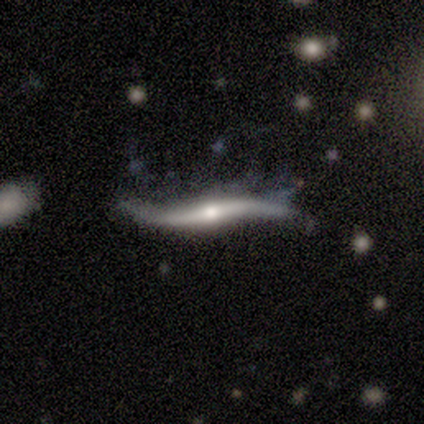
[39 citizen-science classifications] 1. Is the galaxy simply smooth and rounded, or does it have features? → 77% featured or disk, 15% smooth, 8% star or artifact.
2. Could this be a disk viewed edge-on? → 60% yes, 40% no.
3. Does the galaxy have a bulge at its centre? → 83% rounded, 17% none, 0% boxy.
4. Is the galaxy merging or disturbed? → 36% none (tied), 36% major disturbance (tied), 25% minor disturbance, 3% merger.